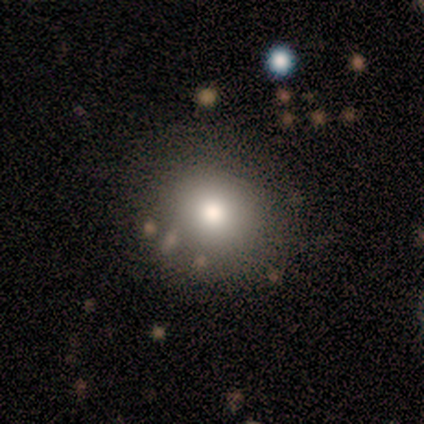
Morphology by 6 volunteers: This is likely a smooth galaxy (67%). How rounded: likely round (75%). Merging: clearly none (100%).